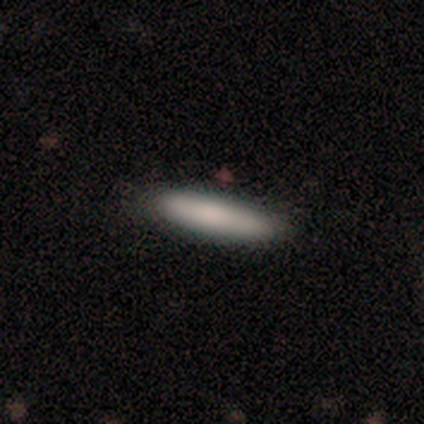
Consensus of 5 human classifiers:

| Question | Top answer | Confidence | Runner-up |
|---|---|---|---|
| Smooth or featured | smooth | 100% | — |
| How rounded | cigar-shaped | 100% | — |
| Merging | none | 80% | major disturbance (20%) |